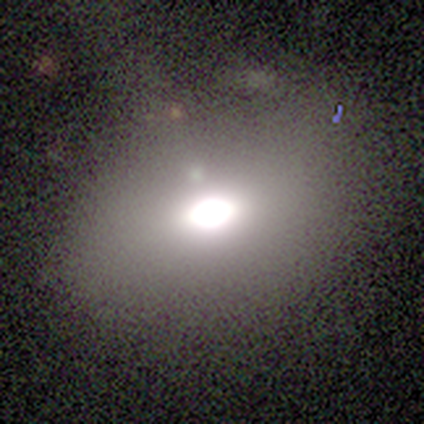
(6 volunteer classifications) This is likely a smooth galaxy (67%). How rounded: clearly in between (100%). Merging: clearly none (100%).